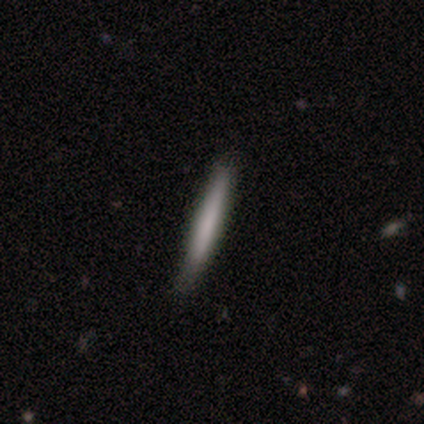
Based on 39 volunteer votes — This is likely a smooth galaxy (74%). How rounded: clearly cigar-shaped (100%). Merging: clearly none (92%).